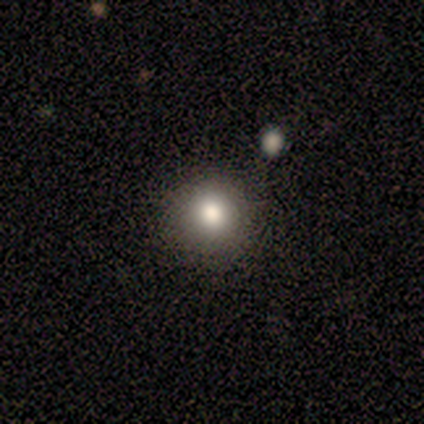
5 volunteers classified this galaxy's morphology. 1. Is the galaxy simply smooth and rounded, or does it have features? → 100% smooth, 0% featured or disk, 0% star or artifact.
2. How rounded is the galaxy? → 100% round, 0% in between, 0% cigar-shaped.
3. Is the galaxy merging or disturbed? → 100% none, 0% minor disturbance, 0% major disturbance, 0% merger.